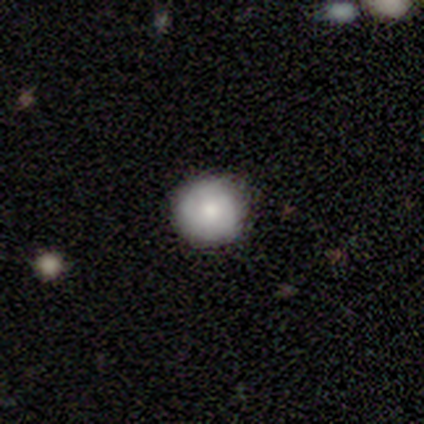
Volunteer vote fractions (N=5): Smooth or featured: smooth — 100%
How rounded: round — 100%
Merging: none — 60% (minor disturbance — 40%)